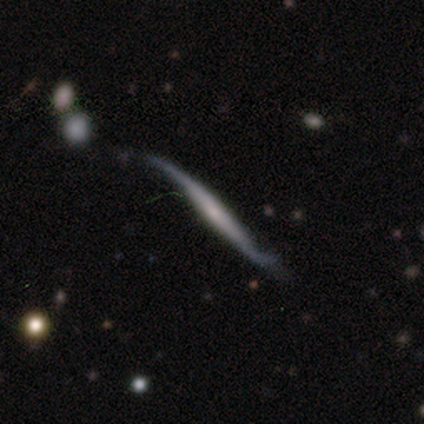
smooth-or-featured: featured or disk: 100% | smooth: 0% | star or artifact: 0%
  disk-edge-on: yes: 80% | no: 20%
    edge-on-bulge: boxy: 50% (tied) | none: 50% (tied) | rounded: 0%
  merging: major disturbance: 60% | none: 20% | minor disturbance: 20% | merger: 0%